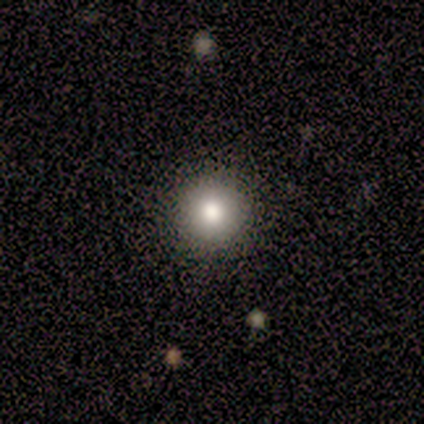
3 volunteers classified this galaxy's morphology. A smooth galaxy with no disk features (100%) that is round (100%). Merging: none (67%).